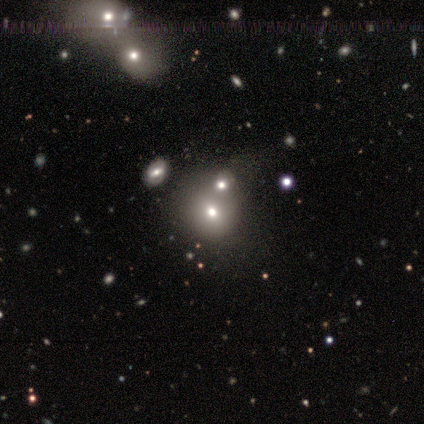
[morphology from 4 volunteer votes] Smooth or featured? 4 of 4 (100%) said smooth. How rounded? 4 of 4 (100%) said round. Merging? 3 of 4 (75%) said none.